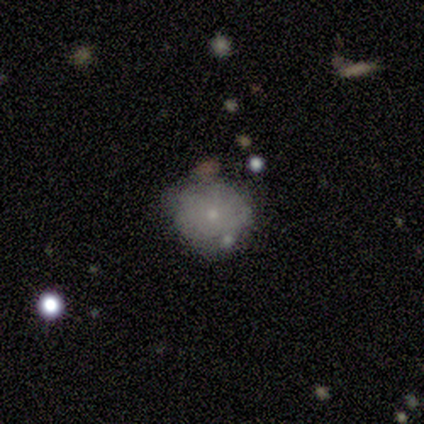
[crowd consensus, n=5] featured or disk 40% (tied), star or artifact 40% (tied), smooth 20%. Down the decision tree: edge-on disk — no (100%); bar — no (100%); spiral arms — no (100%); bulge size — small (100%); merging — none (67%).